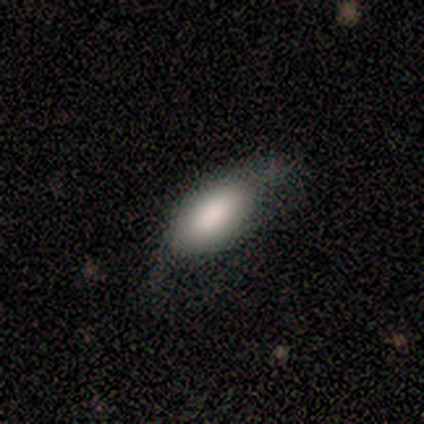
Volunteers were most divided on "smooth or featured": smooth: 75%, featured or disk: 25%, star or artifact: 0%. More confident: how rounded — in between (100%); merging — none (75%).